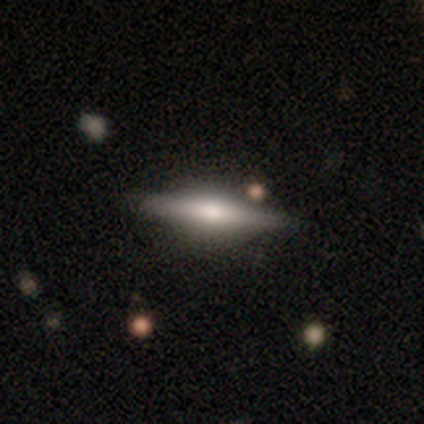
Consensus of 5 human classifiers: Smooth or featured? featured or disk (60%)
Edge-on disk? yes (100%)
Edge-on bulge? rounded (100%)
Merging? none (80%)